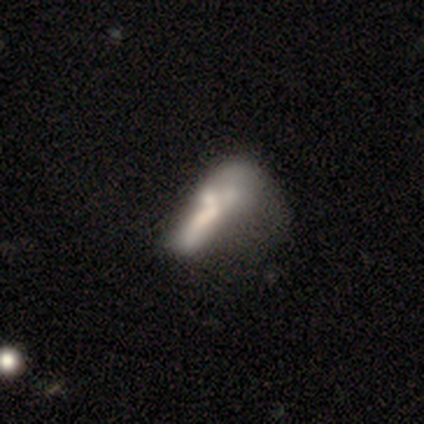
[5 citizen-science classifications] This is clearly a smooth galaxy (80%). How rounded: likely cigar-shaped (75%). Merging: likely major disturbance (60%).